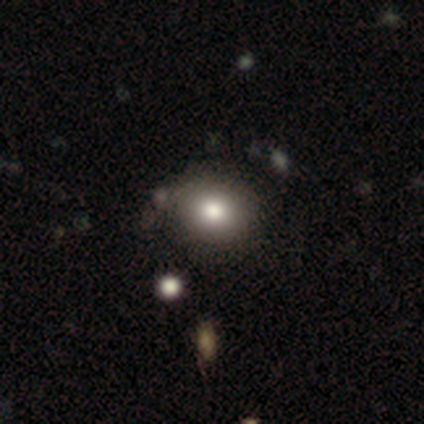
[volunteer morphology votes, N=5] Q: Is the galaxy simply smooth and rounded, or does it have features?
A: smooth — 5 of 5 (100%).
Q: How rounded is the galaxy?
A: in between — 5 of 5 (100%).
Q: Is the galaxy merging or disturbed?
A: none — 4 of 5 (80%).